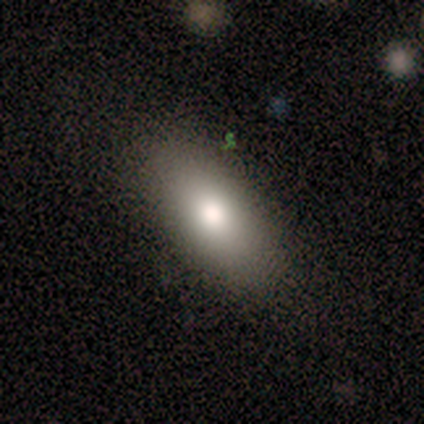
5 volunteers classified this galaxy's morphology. smooth-or-featured: smooth: 100% | featured or disk: 0% | star or artifact: 0%
  how-rounded: in between: 80% | cigar-shaped: 20% | round: 0%
  merging: none: 80% | minor disturbance: 20% | major disturbance: 0% | merger: 0%